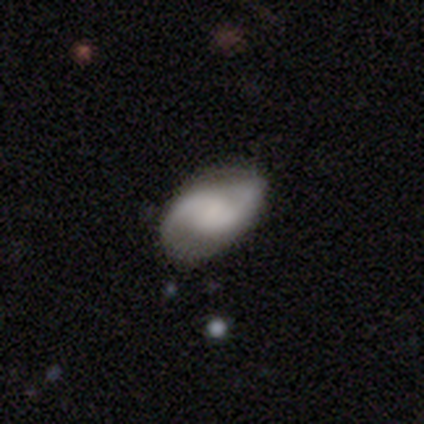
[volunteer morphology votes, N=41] A featured or disk galaxy (54%) with a weak bar (60%), 2 (90%) medium (55%) spiral arms (100%) and no central bulge (45%). Merging: none (69%).